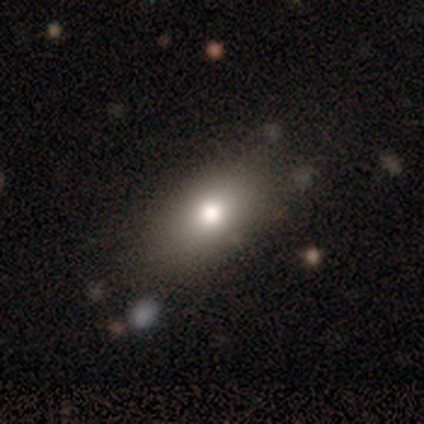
This appears to be a smooth galaxy with no disk features (84%) that is in between round and cigar-shaped (81%). Merging: none (83%).